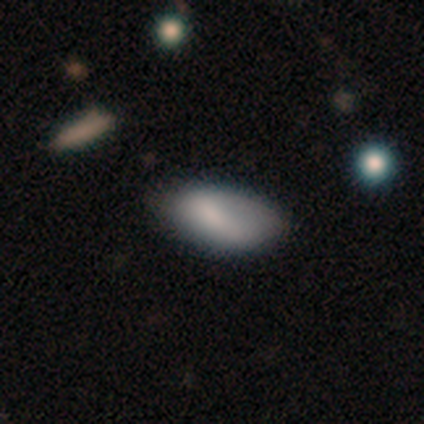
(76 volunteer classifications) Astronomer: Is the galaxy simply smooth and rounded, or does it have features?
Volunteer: smooth — 86%.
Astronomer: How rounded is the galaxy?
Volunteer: in between — 98%.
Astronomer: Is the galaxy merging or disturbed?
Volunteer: none — 31% (runner-up: minor disturbance, 16%).